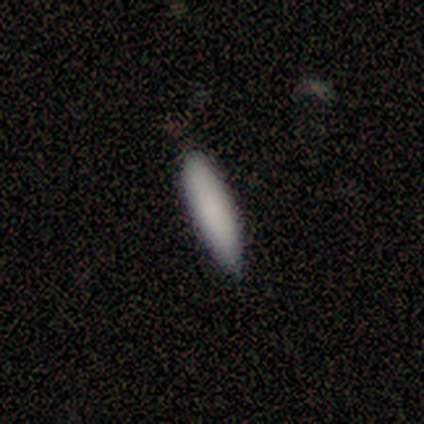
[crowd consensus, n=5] smooth 100%, featured or disk 0%, star or artifact 0%. Down the decision tree: how rounded — cigar-shaped (100%); merging — none (80%).